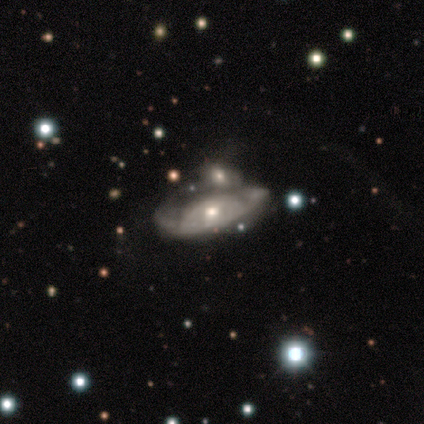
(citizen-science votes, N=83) smooth-or-featured: featured or disk: 86% | smooth: 14% | star or artifact: 0%
  disk-edge-on: no: 83% | yes: 17%
    bar: no: 78% | weak: 20% | strong: 2%
    has-spiral-arms: yes: 59% | no: 41%
      spiral-winding: tight: 57% | medium: 34% | loose: 9%
      spiral-arm-count: can't tell: 54% | 2: 31% | 1: 14% | 3: 0% | 4: 0% | more than 4: 0%
    bulge-size: moderate: 73% | small: 27% | dominant: 0% | large: 0% | none: 0%
  merging: merger: 57% | none: 16% | minor disturbance: 14% | major disturbance: 13%